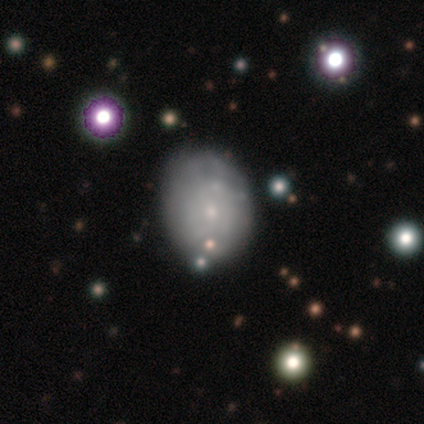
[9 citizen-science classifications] featured or disk 56%, smooth 33%, star or artifact 11%. Down the decision tree: edge-on disk — no (100%); bar — no (100%); spiral arms — no (80%); bulge size — small (60%); merging — none (50%).